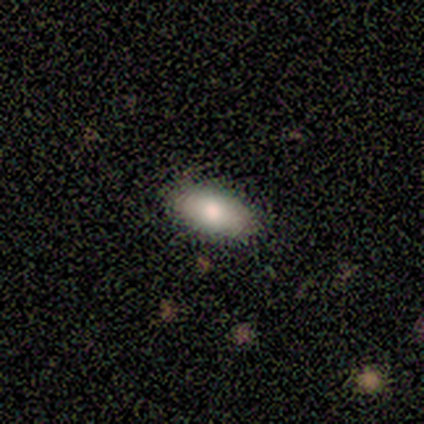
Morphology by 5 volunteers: Volunteers were most divided on "how rounded": in between: 80%, cigar-shaped: 20%, round: 0%. More confident: smooth or featured — smooth (100%); merging — none (100%).